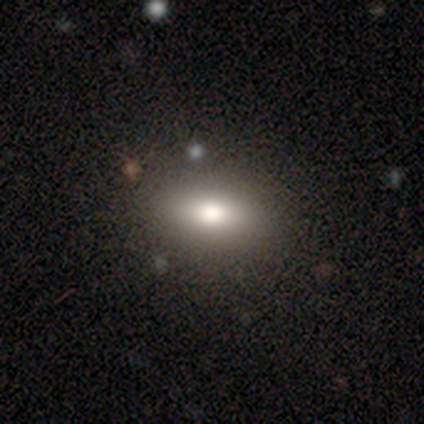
This is clearly a smooth galaxy (80%). How rounded: likely cigar-shaped (75%). Merging: clearly none (100%).